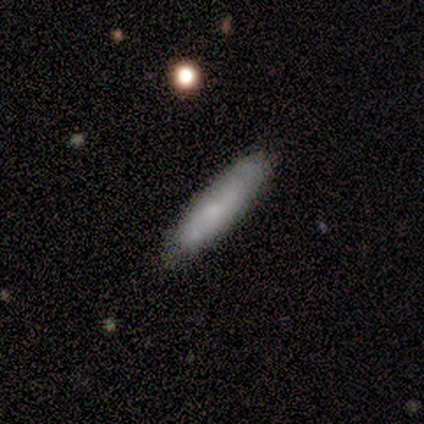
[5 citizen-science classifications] Q: Smooth or featured?
A: smooth (60%); runner-up: featured or disk (40%)
Q: How rounded?
A: in between (67%); runner-up: cigar-shaped (33%)
Q: Merging?
A: none (60%); runner-up: minor disturbance (40%)